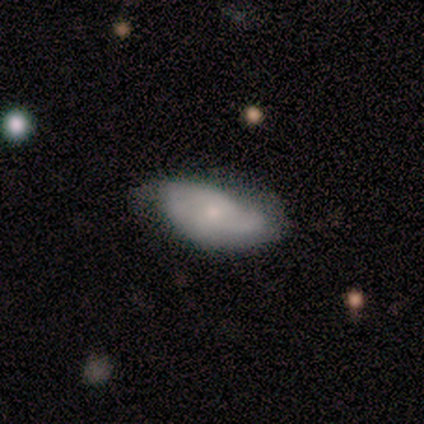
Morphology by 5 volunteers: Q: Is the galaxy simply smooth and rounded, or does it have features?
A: featured or disk — 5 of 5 (100%).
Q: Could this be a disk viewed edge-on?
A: no — 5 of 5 (100%).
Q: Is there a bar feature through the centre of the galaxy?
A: no — 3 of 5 (60%).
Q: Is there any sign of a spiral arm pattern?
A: yes — 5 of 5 (100%).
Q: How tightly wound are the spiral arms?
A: medium — 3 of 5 (60%).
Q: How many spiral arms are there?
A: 2 — 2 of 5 (40%, tied with can't tell).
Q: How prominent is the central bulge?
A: moderate — 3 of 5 (60%).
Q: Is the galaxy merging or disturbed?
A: none — 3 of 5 (60%).